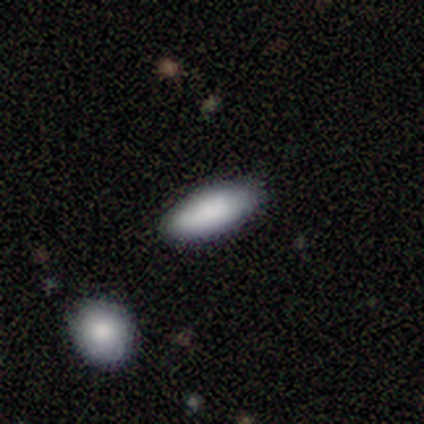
smooth 100%, featured or disk 0%, star or artifact 0%. Down the decision tree: how rounded — in between (80%); merging — none (100%).